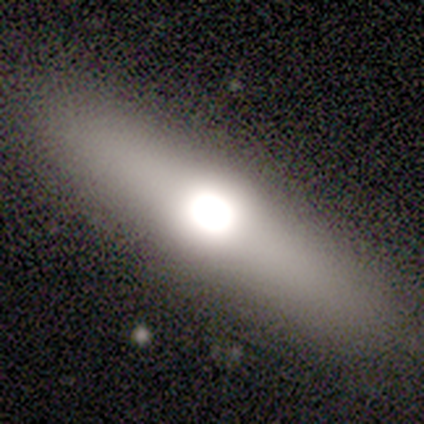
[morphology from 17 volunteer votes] A smooth galaxy with no disk features (53%) that is cigar-shaped (56%).

Vote fractions:
- Smooth or featured? smooth: 53% / featured or disk: 41% / star or artifact: 6%
- How rounded? cigar-shaped: 56% / in between: 44% / round: 0%
- Merging? none: 94% / major disturbance: 6% / minor disturbance: 0% / merger: 0%